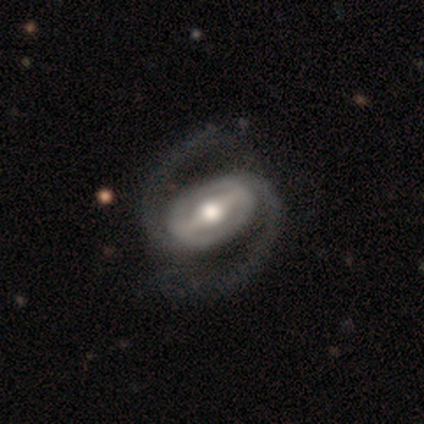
Morphology: type=featured or disk (97%); edge-on=no (95%); bar=strong (92%); spiral arms=yes (94%); winding=medium (56%); arm count=2 (97%); bulge=moderate (69%); merging=none (71%).